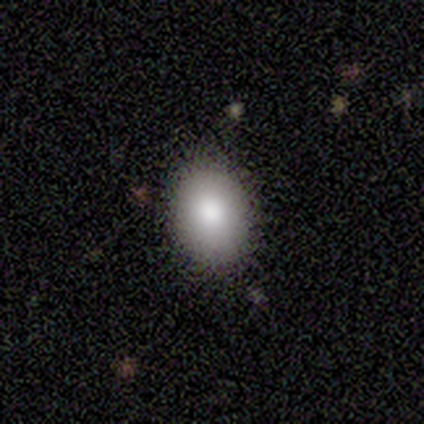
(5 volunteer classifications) This appears to be a smooth galaxy with no disk features (80%) that is in between round and cigar-shaped (100%). Merging: none (100%).